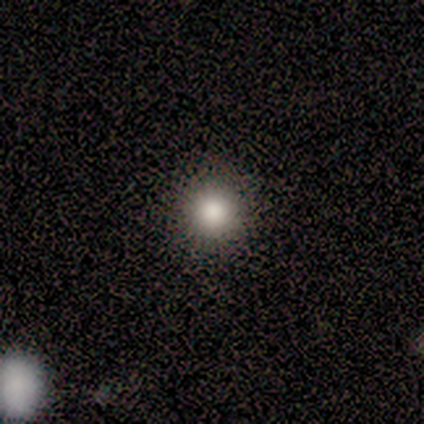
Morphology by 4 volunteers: smooth_or_featured: smooth (p=0.75) [alt: star or artifact p=0.25]
how_rounded: round (p=1.00)
merging: none (p=1.00)